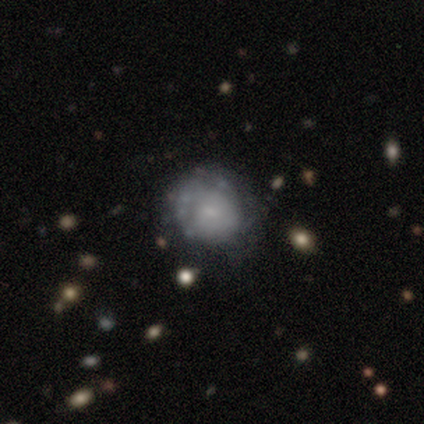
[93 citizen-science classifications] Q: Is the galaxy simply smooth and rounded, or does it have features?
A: smooth — 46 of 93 (49%).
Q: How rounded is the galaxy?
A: round — 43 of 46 (93%).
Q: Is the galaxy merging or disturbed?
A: none — 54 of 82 (66%).